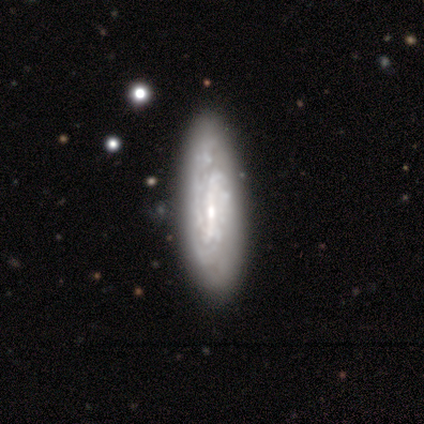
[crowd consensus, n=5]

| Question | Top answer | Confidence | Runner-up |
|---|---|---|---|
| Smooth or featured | featured or disk | 60% | smooth (40%) |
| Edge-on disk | no | 100% | — |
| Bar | strong | 33% | tied: weak (33%), no (33%) |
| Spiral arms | yes | 67% | no (33%) |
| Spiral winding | tight | 50% | tied: loose (50%) |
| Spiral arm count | can't tell | 100% | — |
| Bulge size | moderate | 67% | small (33%) |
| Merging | none | 60% | minor disturbance (20%) |